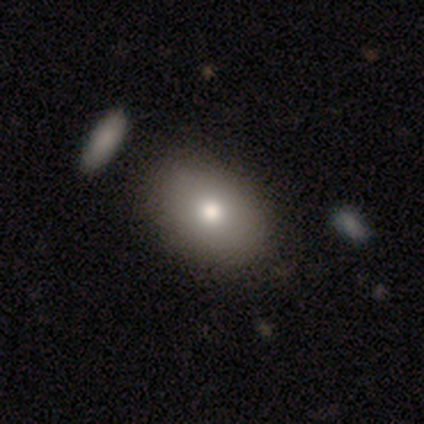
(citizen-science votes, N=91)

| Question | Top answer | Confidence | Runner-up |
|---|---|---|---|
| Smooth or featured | smooth | 76% | featured or disk (15%) |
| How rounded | in between | 83% | round (17%) |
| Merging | none | 83% | minor disturbance (12%) |